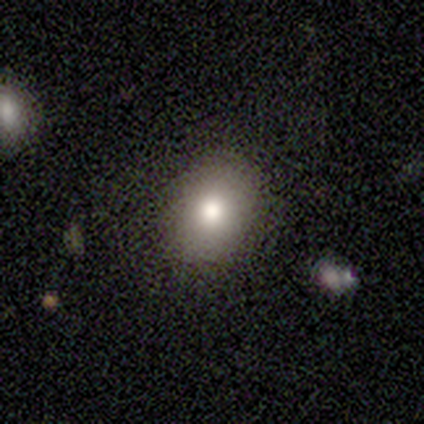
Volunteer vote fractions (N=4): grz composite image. It shows a smooth galaxy with no disk features (75%) that is round (100%). Merging: none (100%).